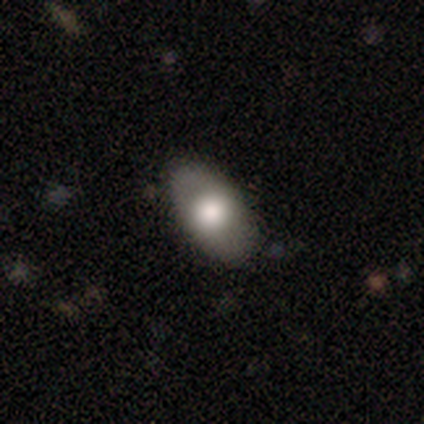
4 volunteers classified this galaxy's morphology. This is clearly a smooth galaxy (100%). How rounded: clearly in between (100%). Merging: likely none (75%).